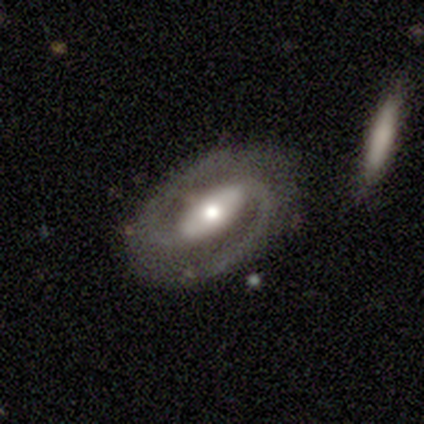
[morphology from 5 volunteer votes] Overall: featured or disk (80%). Edge-on disk: no (100%). Bar: strong (50%; weak 25%). Spiral arms: yes (100%). Spiral arm count: 2 (100%). Spiral winding: tight (50%, tied with medium). Bulge size: small (50%; large 25%). Merging: none (100%).